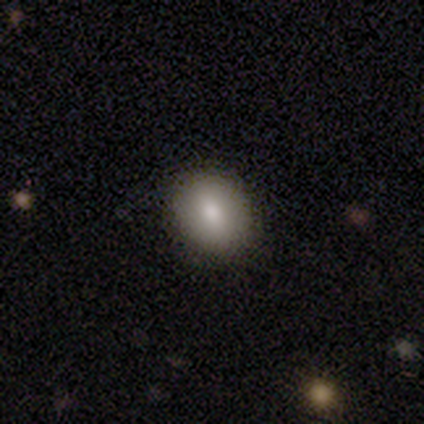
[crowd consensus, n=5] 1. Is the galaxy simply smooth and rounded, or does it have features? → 100% smooth, 0% featured or disk, 0% star or artifact.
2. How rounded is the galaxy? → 80% in between, 20% round, 0% cigar-shaped.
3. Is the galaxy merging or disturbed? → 80% none, 20% minor disturbance, 0% major disturbance, 0% merger.